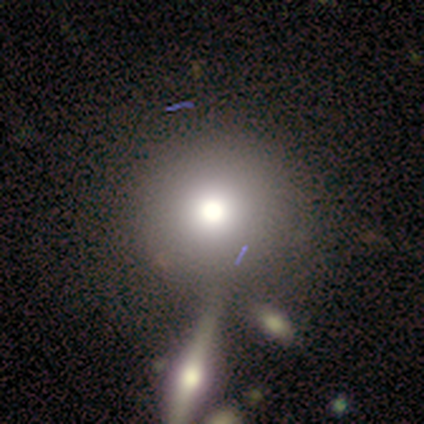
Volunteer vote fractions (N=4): smooth 75%, star or artifact 25%, featured or disk 0%. Down the decision tree: how rounded — round (100%); merging — none (100%).